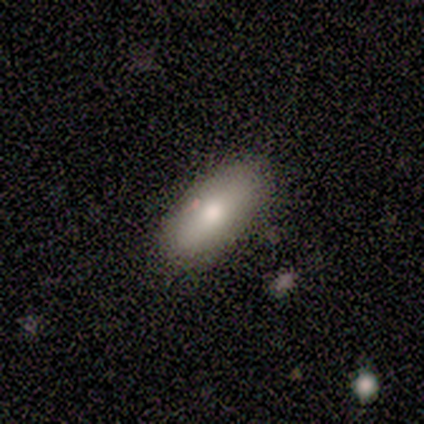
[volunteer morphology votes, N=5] Volunteers were most divided on "how rounded" (2-way tie): in between: 50%, cigar-shaped: 50%, round: 0%. More confident: merging — none (100%); smooth or featured — smooth (80%).